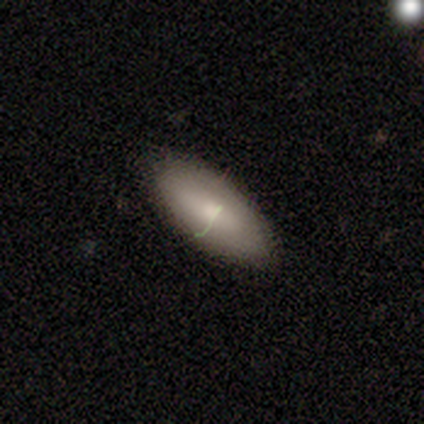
Volunteers were most divided on "smooth or featured" (2-way tie): smooth: 40%, featured or disk: 40%, star or artifact: 20%. More confident: merging — none (88%); how rounded — in between (75%).